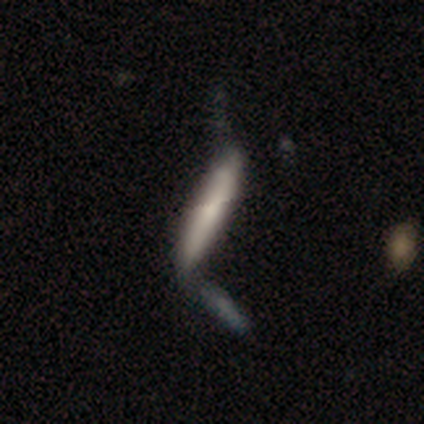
Volunteers were most divided on "merging" (2-way tie): minor disturbance: 40%, merger: 40%, none: 20%, major disturbance: 0%. More confident: how rounded — cigar-shaped (100%); smooth or featured — smooth (80%).